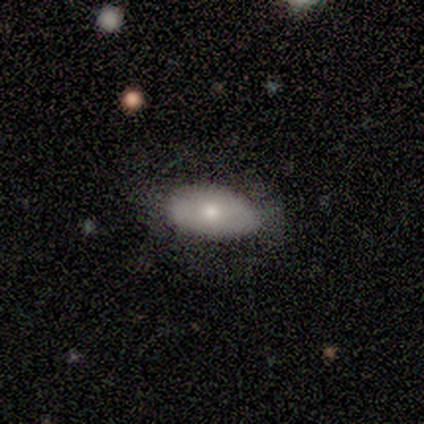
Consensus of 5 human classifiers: Overall: smooth (80%). How rounded: in between (100%). Merging: none (80%).